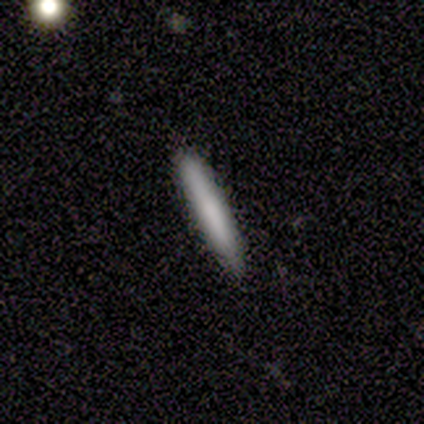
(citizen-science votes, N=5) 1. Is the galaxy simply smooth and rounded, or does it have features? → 40% smooth (tied), 40% featured or disk (tied), 20% star or artifact.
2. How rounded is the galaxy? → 100% cigar-shaped, 0% round, 0% in between.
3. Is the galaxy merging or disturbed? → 75% none, 25% minor disturbance, 0% major disturbance, 0% merger.